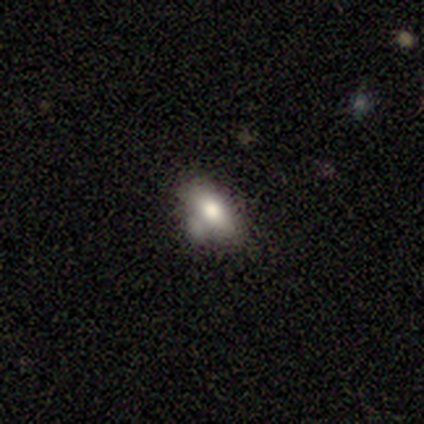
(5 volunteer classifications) Smooth or featured?
  - smooth: 80% *
  - star or artifact: 20%
  - featured or disk: 0%
How rounded?
  - in between: 100% *
  - round: 0%
  - cigar-shaped: 0%
Merging?
  - none: 50% *
  - minor disturbance: 25%
  - merger: 25%
  - major disturbance: 0%